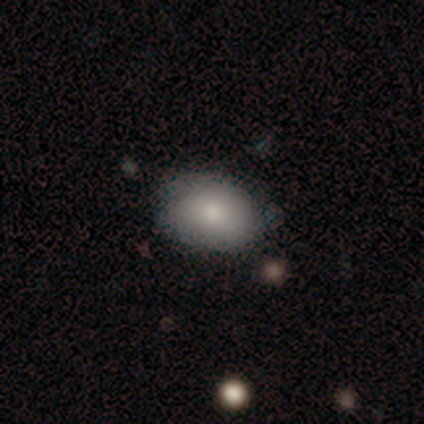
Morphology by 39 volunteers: A smooth galaxy with no disk features (79%) that is in between round and cigar-shaped (81%).

Vote fractions:
- Smooth or featured? smooth: 79% / featured or disk: 10% / star or artifact: 10%
- How rounded? in between: 81% / round: 19% / cigar-shaped: 0%
- Merging? none: 77% / minor disturbance: 20% / major disturbance: 3% / merger: 0%